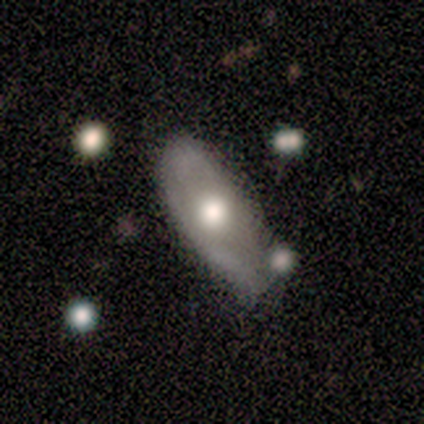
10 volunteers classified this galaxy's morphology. This appears to be a smooth galaxy with no disk features (60%) that is in between round and cigar-shaped (83%). Merging: none (40%, tied with minor disturbance).